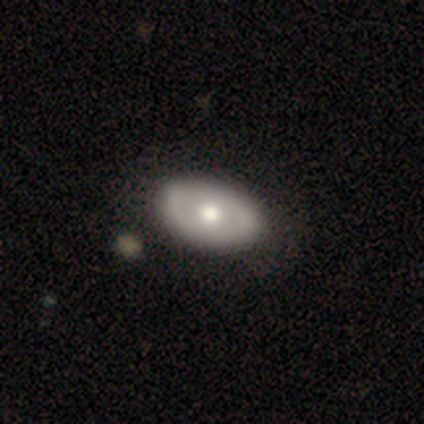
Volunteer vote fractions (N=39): This is possibly a featured or disk galaxy (49%). It is clearly not viewed edge-on (95%). Bar: clearly no (100%). Spiral arm pattern: clearly no (89%). Central bulge: likely moderate (61%). Merging: possibly none (50%).